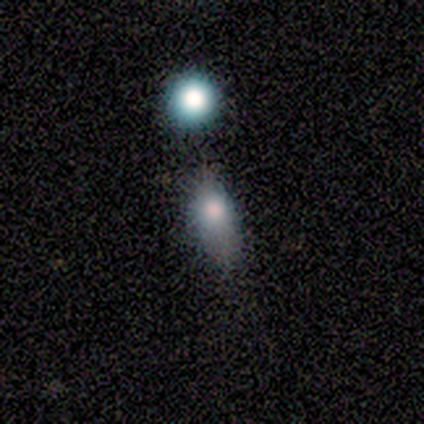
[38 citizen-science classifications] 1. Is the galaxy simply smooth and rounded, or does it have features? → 71% smooth, 16% star or artifact, 13% featured or disk.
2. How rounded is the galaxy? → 78% in between, 22% round, 0% cigar-shaped.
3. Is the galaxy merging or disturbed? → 41% none, 31% minor disturbance, 16% merger, 0% major disturbance.